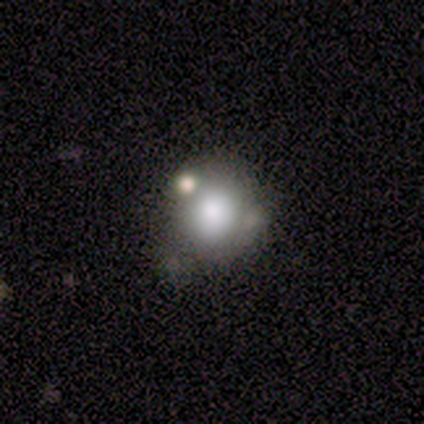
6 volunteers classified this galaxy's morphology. Smooth or featured? smooth (100%)
How rounded? round (100%)
Merging? none (50%)